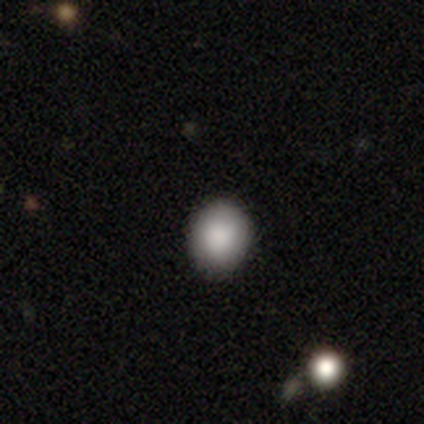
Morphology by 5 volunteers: smooth 100%, featured or disk 0%, star or artifact 0%. Down the decision tree: how rounded — round (100%); merging — none (80%).